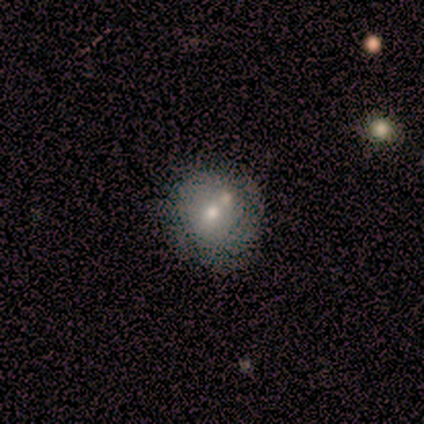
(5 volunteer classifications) A smooth galaxy with no disk features (60%) that is round (67%).

Vote fractions:
- Smooth or featured? smooth: 60% / featured or disk: 20% / star or artifact: 20%
- How rounded? round: 67% / cigar-shaped: 33% / in between: 0%
- Merging? none: 75% / merger: 25% / minor disturbance: 0% / major disturbance: 0%